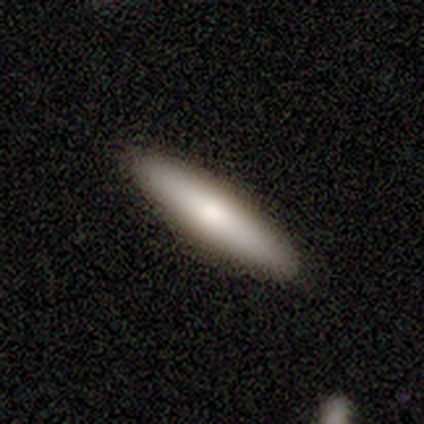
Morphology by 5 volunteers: Smooth or featured? smooth (80%)
How rounded? cigar-shaped (100%)
Merging? none (100%)